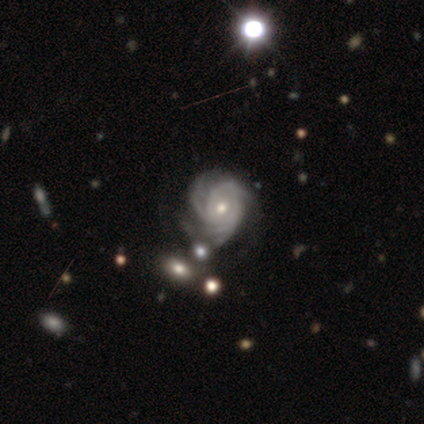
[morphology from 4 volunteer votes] This is likely a featured or disk galaxy (75%). It is clearly not viewed edge-on (100%). Bar: clearly no (100%). Spiral arm pattern: clearly yes (100%). Spiral arm count: likely 3 (67%). Spiral winding: likely tight (67%). Central bulge: clearly small (100%). Merging: possibly none (50%).